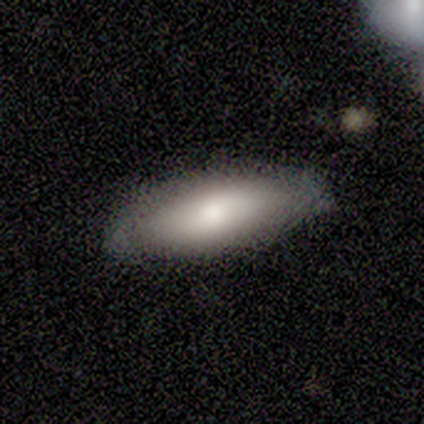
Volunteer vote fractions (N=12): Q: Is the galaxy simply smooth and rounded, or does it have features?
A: smooth — 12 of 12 (100%).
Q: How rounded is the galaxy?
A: in between — 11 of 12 (92%).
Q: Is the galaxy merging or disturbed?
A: none — 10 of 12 (83%).